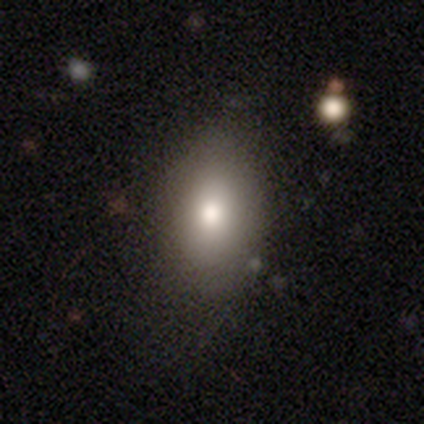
A smooth galaxy with no disk features (74%) that is in between round and cigar-shaped (90%). Merging: none (72%).